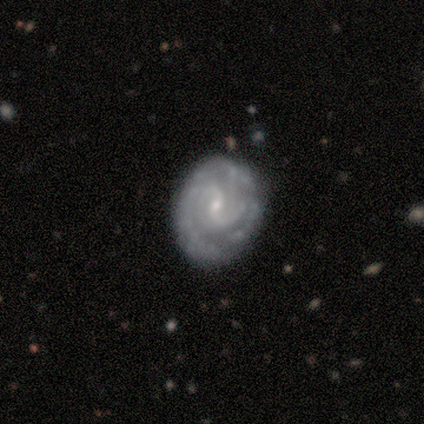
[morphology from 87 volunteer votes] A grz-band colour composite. It shows a featured or disk galaxy (89%) with no bar (49%), 2 (68%) tight (40%) spiral arms (96%) and a small central bulge (78%). Merging: none (73%).